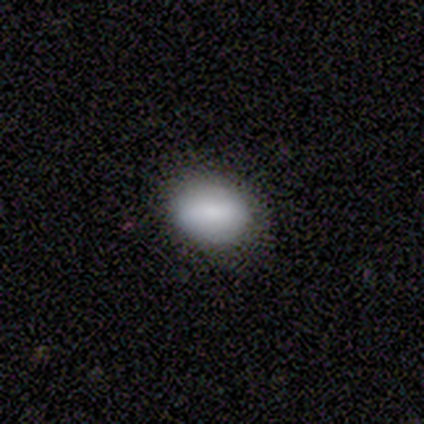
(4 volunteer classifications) A smooth galaxy with no disk features (100%) that is round (100%). Merging: none (100%).